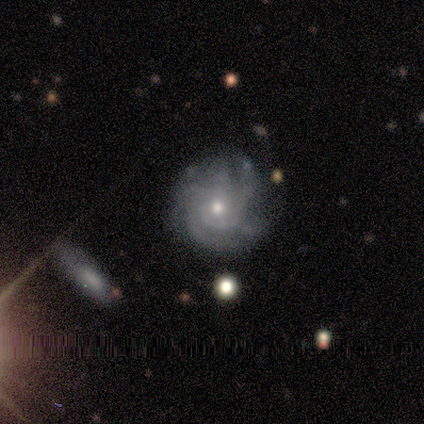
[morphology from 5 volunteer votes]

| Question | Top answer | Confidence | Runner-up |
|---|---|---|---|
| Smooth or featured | featured or disk | 80% | smooth (20%) |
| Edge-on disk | no | 100% | — |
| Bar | no | 75% | weak (25%) |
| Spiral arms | yes | 100% | — |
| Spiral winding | tight | 50% | medium (25%) |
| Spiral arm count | can't tell | 50% | 2 (25%) |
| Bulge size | small | 100% | — |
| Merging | none | 80% | minor disturbance (20%) |